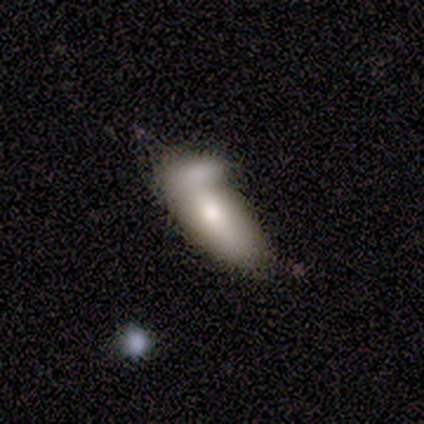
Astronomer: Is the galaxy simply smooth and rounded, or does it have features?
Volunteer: smooth — 80%.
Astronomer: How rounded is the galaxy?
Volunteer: in between — 100%.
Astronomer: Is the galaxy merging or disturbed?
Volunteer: merger — 60% (runner-up: none, 40%).